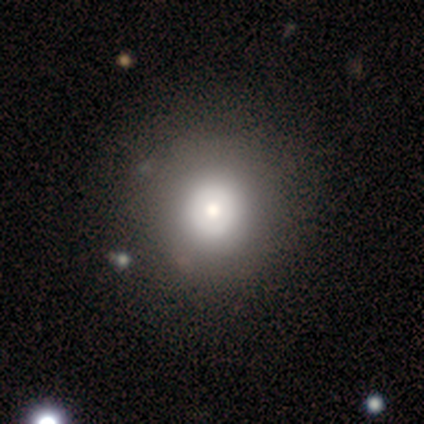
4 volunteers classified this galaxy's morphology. Smooth or featured?
  - smooth: 100% *
  - featured or disk: 0%
  - star or artifact: 0%
How rounded?
  - round: 100% *
  - in between: 0%
  - cigar-shaped: 0%
Merging?
  - none: 100% *
  - minor disturbance: 0%
  - major disturbance: 0%
  - merger: 0%